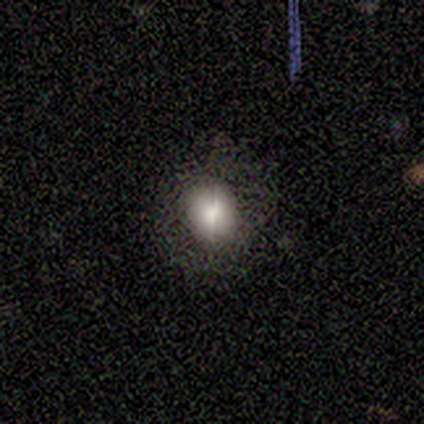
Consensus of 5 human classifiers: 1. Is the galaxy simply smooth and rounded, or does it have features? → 80% smooth, 20% featured or disk, 0% star or artifact.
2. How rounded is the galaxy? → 100% round, 0% in between, 0% cigar-shaped.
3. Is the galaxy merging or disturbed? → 100% none, 0% minor disturbance, 0% major disturbance, 0% merger.